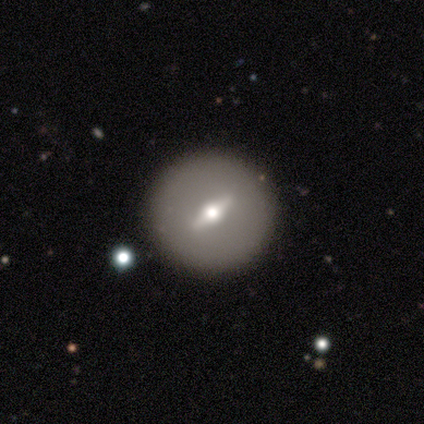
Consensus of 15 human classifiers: smooth_or_featured: featured or disk (p=0.53) [alt: smooth p=0.47]
disk_edge_on: no (p=0.62) [alt: yes p=0.38]
bar: weak (p=0.60) [alt: strong p=0.40]
has_spiral_arms: no (p=1.00)
bulge_size: moderate (p=1.00)
merging: none (p=0.80) [alt: minor disturbance p=0.13]